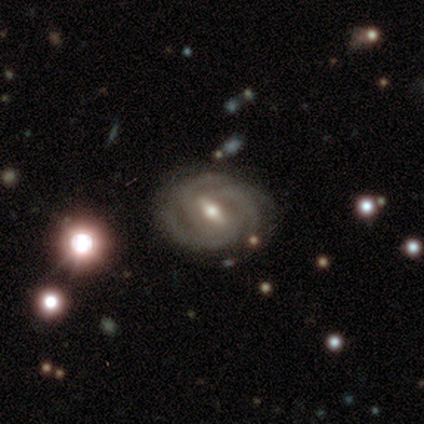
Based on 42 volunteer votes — featured or disk 90%, smooth 5%, star or artifact 5%. Down the decision tree: edge-on disk — no (95%); bar — strong (50%, tied with weak); spiral arms — yes (100%); spiral arm count — 3 (83%); spiral winding — tight (78%); bulge size — moderate (64%); merging — none (68%).